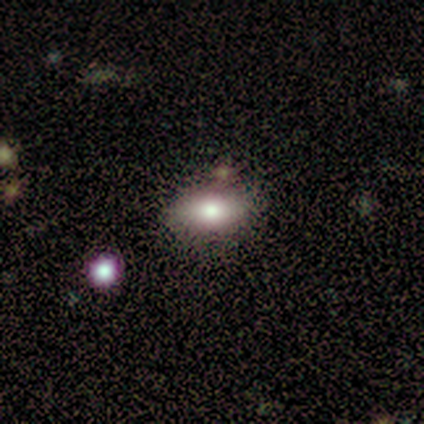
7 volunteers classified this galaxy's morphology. smooth 100%, featured or disk 0%, star or artifact 0%. Down the decision tree: how rounded — in between (86%); merging — none (100%).